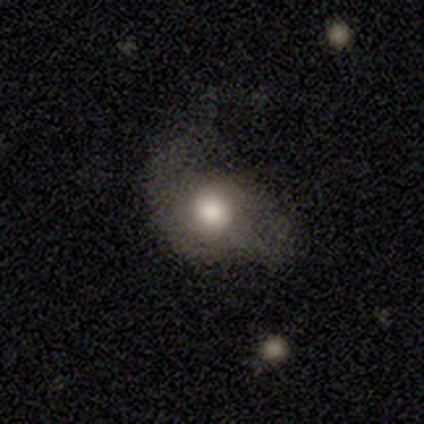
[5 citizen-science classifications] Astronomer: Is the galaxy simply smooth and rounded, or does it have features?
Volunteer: smooth — 60% (runner-up: featured or disk, 40%).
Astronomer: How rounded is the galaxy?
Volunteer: in between — 67%.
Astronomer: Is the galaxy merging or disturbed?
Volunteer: major disturbance — 60%.